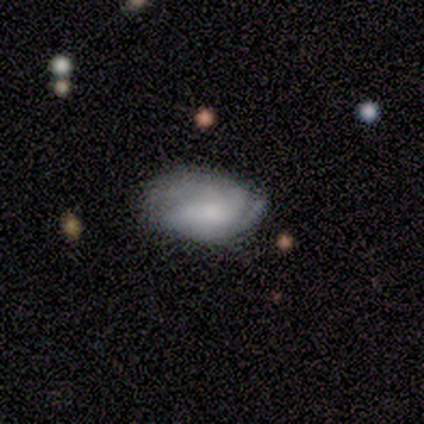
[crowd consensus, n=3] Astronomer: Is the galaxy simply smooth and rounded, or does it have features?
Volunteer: smooth — 67%.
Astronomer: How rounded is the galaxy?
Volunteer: round — 50%, tied with in between at 50%.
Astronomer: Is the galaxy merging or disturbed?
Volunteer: none — 100%.